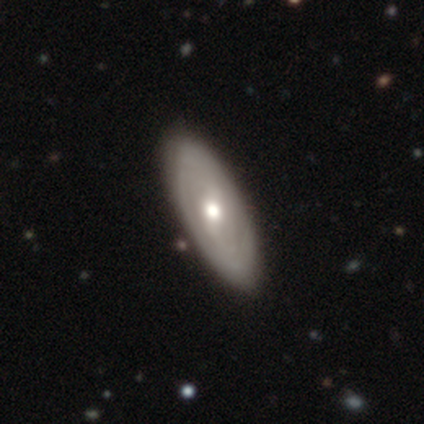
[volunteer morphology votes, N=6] A featured or disk galaxy (67%) with a weak bar (50%, tied with no), 2 (50%, tied with can't tell) tight (100%) spiral arms (50%, tied with no) and a moderate central bulge (50%, tied with small).

Vote fractions:
- Smooth or featured? featured or disk: 67% / smooth: 33% / star or artifact: 0%
- Edge-on disk? no: 100% / yes: 0%
- Bar? weak: 50% (tied) / no: 50% (tied) / strong: 0%
- Spiral arms? yes: 50% (tied) / no: 50% (tied)
- Spiral winding? tight: 100% / medium: 0% / loose: 0%
- Spiral arm count? 2: 50% (tied) / can't tell: 50% (tied) / 1: 0% / 3: 0% / 4: 0% / more than 4: 0%
- Bulge size? moderate: 50% (tied) / small: 50% (tied) / dominant: 0% / large: 0% / none: 0%
- Merging? none: 100% / minor disturbance: 0% / major disturbance: 0% / merger: 0%